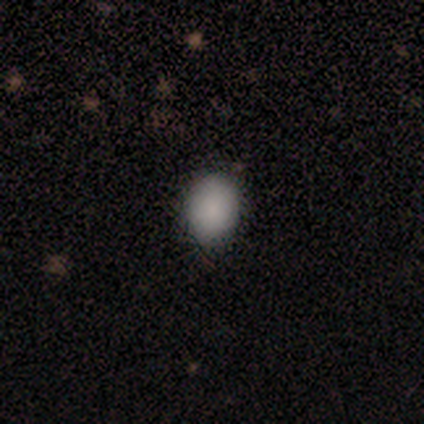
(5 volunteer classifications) Smooth or featured? smooth (100%)
How rounded? in between (80%)
Merging? none (100%)